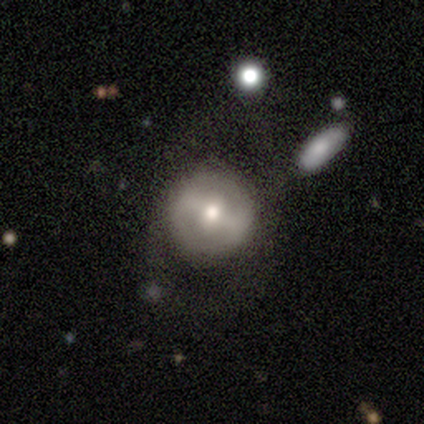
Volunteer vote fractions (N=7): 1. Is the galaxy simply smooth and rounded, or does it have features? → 57% smooth, 43% featured or disk, 0% star or artifact.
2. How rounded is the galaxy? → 100% round, 0% in between, 0% cigar-shaped.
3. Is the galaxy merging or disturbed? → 57% none, 29% minor disturbance, 14% major disturbance, 0% merger.